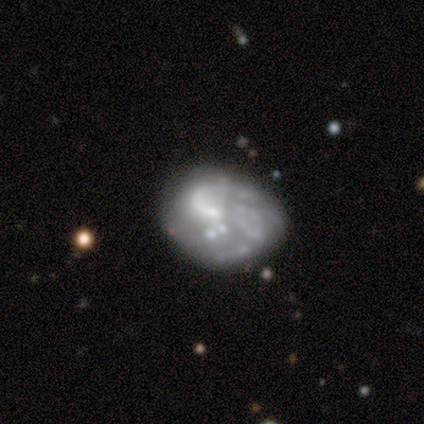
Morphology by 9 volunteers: smooth_or_featured: featured or disk (p=0.89) [alt: smooth p=0.11]
disk_edge_on: no (p=1.00)
bar: no (p=0.75) [alt: weak p=0.25]
has_spiral_arms: yes (p=0.62) [alt: no p=0.38]
spiral_winding: loose (p=0.60) [alt: tight p=0.20]
spiral_arm_count: 1 (p=0.40) [tied with: 2 p=0.40]
bulge_size: small (p=0.50) [tied with: none p=0.50]
merging: none (p=0.33) [tied with: minor disturbance p=0.33]